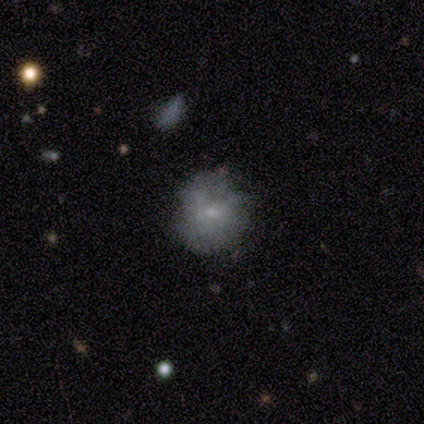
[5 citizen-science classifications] Smooth or featured? smooth (80%)
How rounded? round (100%)
Merging? none (60%)